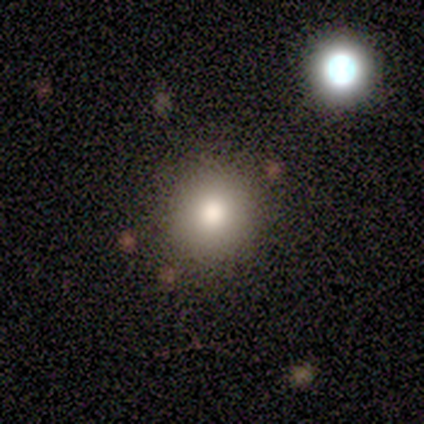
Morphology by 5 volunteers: Smooth or featured?
  - smooth: 100% *
  - featured or disk: 0%
  - star or artifact: 0%
How rounded?
  - round: 80% *
  - in between: 20%
  - cigar-shaped: 0%
Merging?
  - none: 100% *
  - minor disturbance: 0%
  - major disturbance: 0%
  - merger: 0%